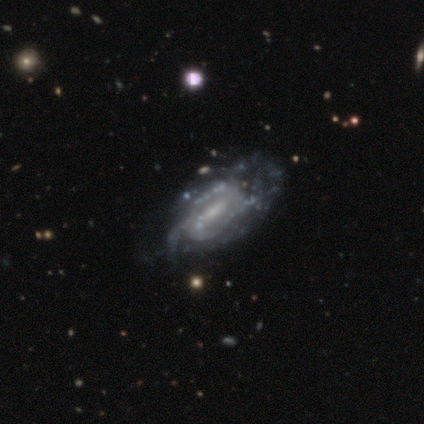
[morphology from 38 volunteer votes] Smooth or featured? 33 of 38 (87%) said featured or disk. Edge-on disk? 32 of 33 (97%) said no. Bar? 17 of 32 (53%) said weak. Spiral arms? 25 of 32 (78%) said yes. Spiral winding? 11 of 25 (44%) said tight. Spiral arm count? 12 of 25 (48%) said can't tell. Bulge size? 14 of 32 (44%) said small. Merging? 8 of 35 (23%) said none.